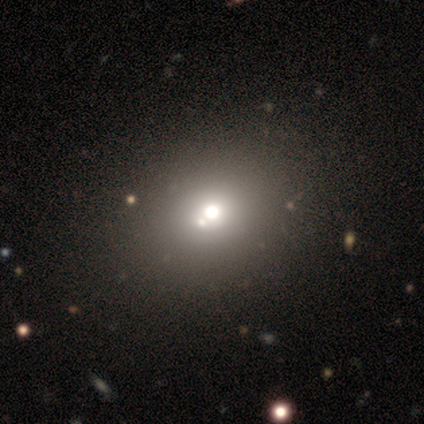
smooth_or_featured: smooth (p=0.66) [alt: featured or disk p=0.21]
how_rounded: round (p=0.59) [alt: in between p=0.41]
merging: merger (p=0.44) [alt: none p=0.06]